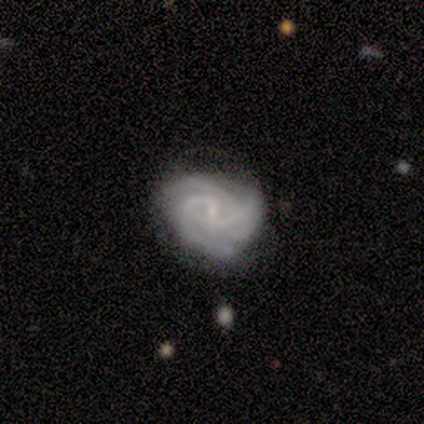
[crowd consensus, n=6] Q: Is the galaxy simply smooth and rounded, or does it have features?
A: featured or disk — 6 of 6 (100%).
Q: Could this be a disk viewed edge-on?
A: no — 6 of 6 (100%).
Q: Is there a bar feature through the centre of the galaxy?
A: no — 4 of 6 (67%).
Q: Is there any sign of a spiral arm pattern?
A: yes — 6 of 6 (100%).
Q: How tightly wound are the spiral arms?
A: tight — 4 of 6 (67%).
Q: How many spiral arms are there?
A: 2 — 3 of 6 (50%).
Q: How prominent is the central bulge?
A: small — 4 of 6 (67%).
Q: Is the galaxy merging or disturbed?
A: none — 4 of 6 (67%).